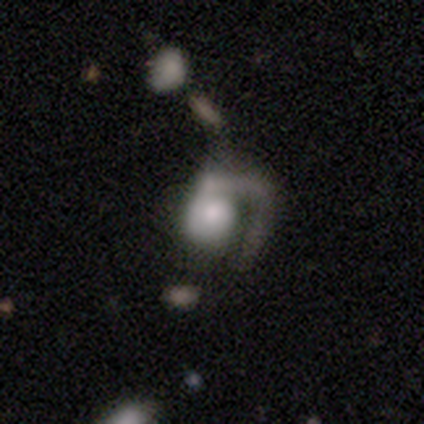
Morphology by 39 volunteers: Volunteers were most divided on "spiral winding" (2-way tie): medium: 35%, loose: 35%, tight: 30%. Remaining: spiral arm count — 1 (100%); edge-on disk — no (92%); bar — no (92%); spiral arms — yes (83%); smooth or featured — featured or disk (67%); merging — major disturbance (50%); bulge size — moderate (42%).